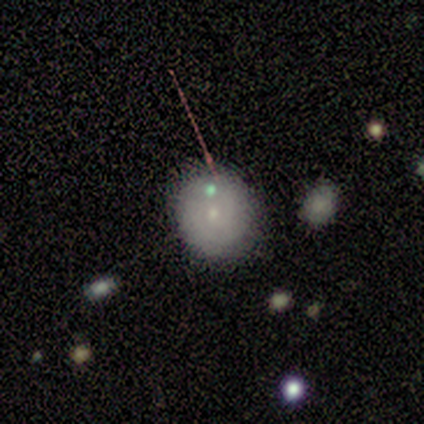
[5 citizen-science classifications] smooth-or-featured: smooth: 60% | featured or disk: 20% | star or artifact: 20%
  how-rounded: round: 67% | in between: 33% | cigar-shaped: 0%
  merging: none: 75% | merger: 25% | minor disturbance: 0% | major disturbance: 0%